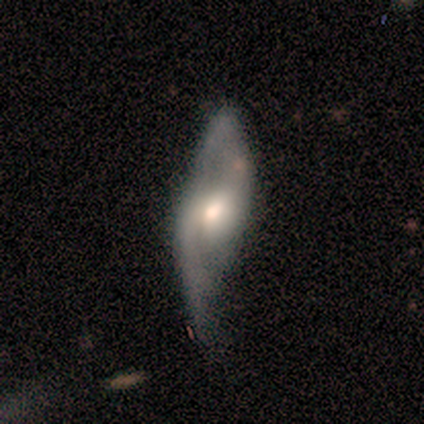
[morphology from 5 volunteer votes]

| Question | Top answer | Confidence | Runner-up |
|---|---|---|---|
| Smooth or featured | featured or disk | 100% | — |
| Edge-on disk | no | 80% | yes (20%) |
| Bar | no | 75% | weak (25%) |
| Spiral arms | yes | 75% | no (25%) |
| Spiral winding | loose | 100% | — |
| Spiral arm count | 2 | 100% | — |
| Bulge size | moderate | 100% | — |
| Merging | minor disturbance | 40% | tied: major disturbance (40%) |